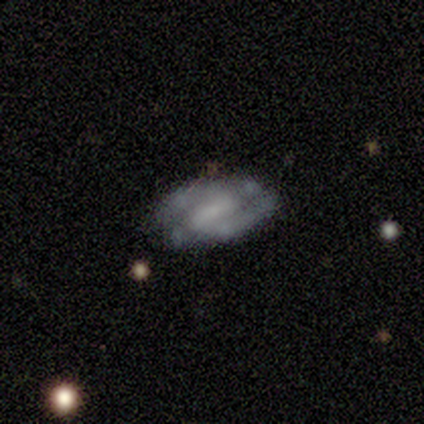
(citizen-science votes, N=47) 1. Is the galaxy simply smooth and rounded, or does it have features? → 68% featured or disk, 23% smooth, 9% star or artifact.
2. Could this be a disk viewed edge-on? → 97% no, 3% yes.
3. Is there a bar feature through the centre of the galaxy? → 48% weak, 39% strong, 13% no.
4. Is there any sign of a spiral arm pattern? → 84% yes, 16% no.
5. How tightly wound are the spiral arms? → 54% medium, 35% tight, 12% loose.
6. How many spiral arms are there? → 81% 2, 12% can't tell, 4% 1, 4% 4, 0% 3, 0% more than 4.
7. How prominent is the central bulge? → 39% small (tied), 39% none (tied), 16% moderate, 6% large, 0% dominant.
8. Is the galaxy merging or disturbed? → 77% none, 23% minor disturbance, 0% major disturbance, 0% merger.